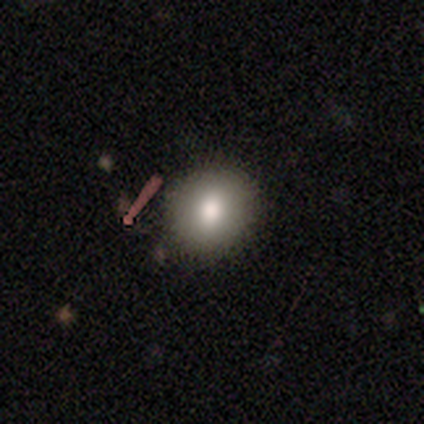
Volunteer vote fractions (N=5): This appears to be a smooth galaxy with no disk features (100%) that is round (80%). Merging: none (100%).